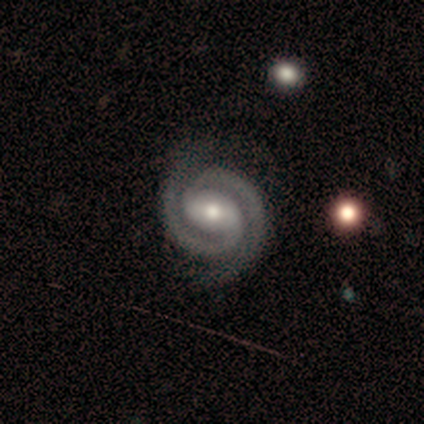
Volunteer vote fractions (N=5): featured or disk 100%, smooth 0%, star or artifact 0%. Down the decision tree: edge-on disk — no (100%); bar — weak (40%, tied with no); spiral arms — yes (100%); spiral arm count — 2 (100%); spiral winding — tight (60%); bulge size — moderate (80%); merging — none (100%).